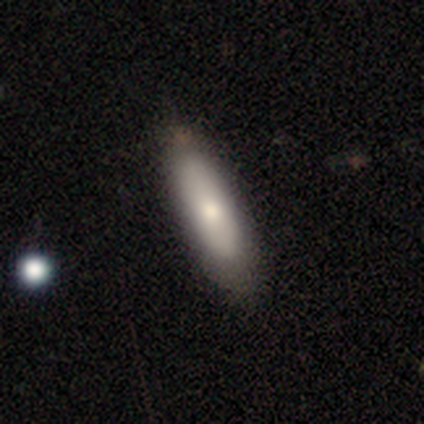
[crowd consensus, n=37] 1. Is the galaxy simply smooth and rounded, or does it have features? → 70% smooth, 27% featured or disk, 3% star or artifact.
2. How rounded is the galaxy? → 62% cigar-shaped, 38% in between, 0% round.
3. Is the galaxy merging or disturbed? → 92% none, 8% minor disturbance, 0% major disturbance, 0% merger.